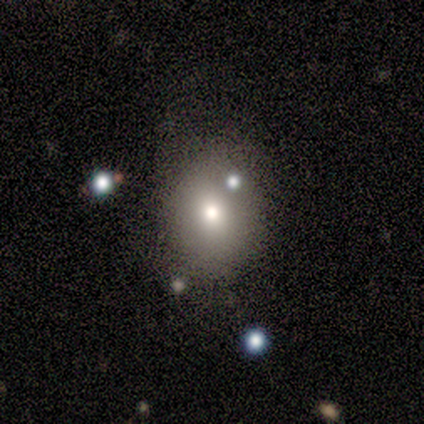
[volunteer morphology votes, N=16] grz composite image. It shows a smooth galaxy with no disk features (75%) that is in between round and cigar-shaped (58%). Merging: none (69%).